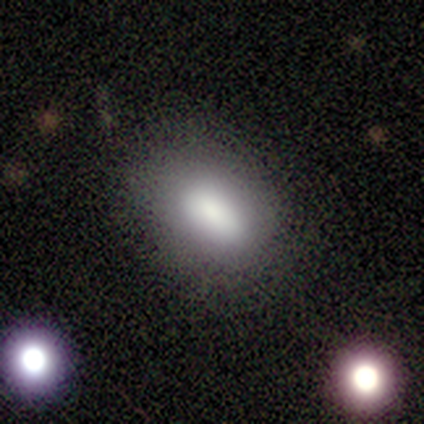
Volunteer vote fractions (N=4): Smooth or featured: smooth — 100%
How rounded: in between — 100%
Merging: minor disturbance — 50% (tied with merger — 50%)